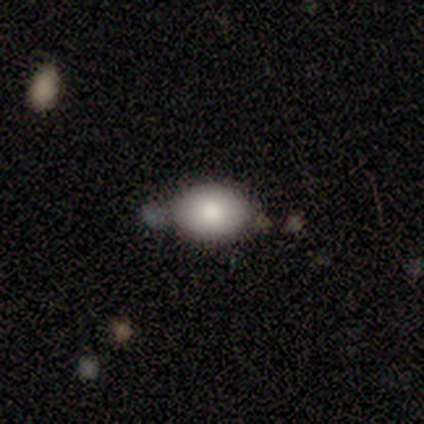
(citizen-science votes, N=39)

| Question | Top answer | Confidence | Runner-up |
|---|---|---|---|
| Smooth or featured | smooth | 79% | featured or disk (13%) |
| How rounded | in between | 81% | round (19%) |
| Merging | none | 64% | minor disturbance (28%) |